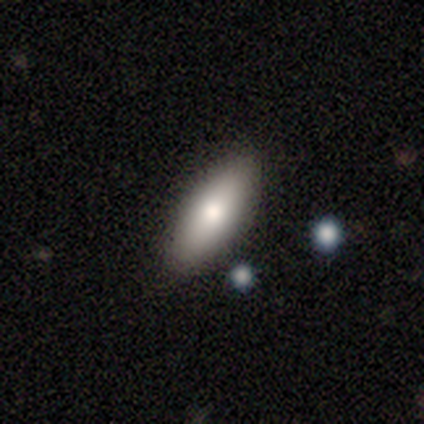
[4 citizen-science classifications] smooth-or-featured: smooth: 75% | star or artifact: 25% | featured or disk: 0%
  how-rounded: in between: 100% | round: 0% | cigar-shaped: 0%
  merging: none: 100% | minor disturbance: 0% | major disturbance: 0% | merger: 0%